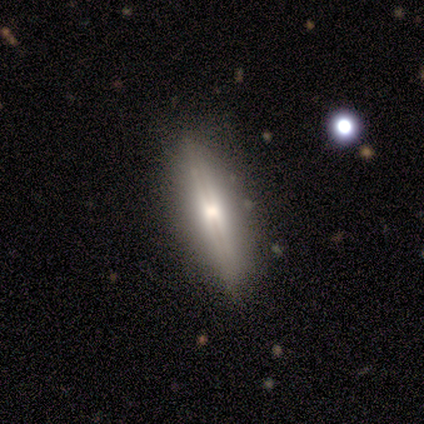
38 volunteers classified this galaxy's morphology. A featured or disk galaxy (68%) viewed edge-on (100%) with a rounded central bulge (58%).

Vote fractions:
- Smooth or featured? featured or disk: 68% / smooth: 29% / star or artifact: 3%
- Edge-on disk? yes: 100% / no: 0%
- Edge-on bulge? rounded: 58% / none: 23% / boxy: 19%
- Merging? none: 86% / minor disturbance: 8% / major disturbance: 5% / merger: 0%